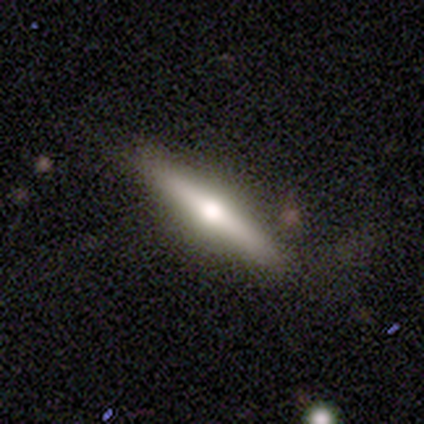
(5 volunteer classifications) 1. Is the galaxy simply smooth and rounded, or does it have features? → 60% smooth, 40% featured or disk, 0% star or artifact.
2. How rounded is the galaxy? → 67% cigar-shaped, 33% in between, 0% round.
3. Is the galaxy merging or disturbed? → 80% none, 20% major disturbance, 0% minor disturbance, 0% merger.